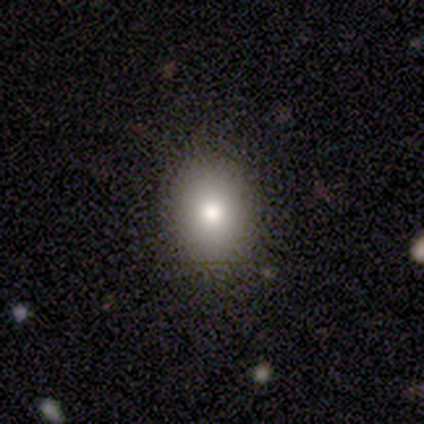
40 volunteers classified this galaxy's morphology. smooth 78%, featured or disk 18%, star or artifact 5%. Down the decision tree: how rounded — in between (52%); merging — none (87%).